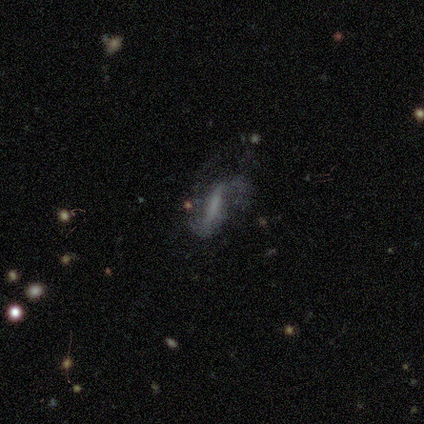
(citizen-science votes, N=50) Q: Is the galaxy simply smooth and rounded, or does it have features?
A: featured or disk — 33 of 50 (66%).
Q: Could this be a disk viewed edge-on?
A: no — 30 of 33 (91%).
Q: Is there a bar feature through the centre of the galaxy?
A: strong — 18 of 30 (60%).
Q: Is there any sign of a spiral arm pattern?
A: yes — 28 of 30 (93%).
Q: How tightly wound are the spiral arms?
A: loose — 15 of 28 (54%).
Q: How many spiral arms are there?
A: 2 — 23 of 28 (82%).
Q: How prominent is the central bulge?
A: none — 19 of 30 (63%).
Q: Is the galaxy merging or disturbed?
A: major disturbance — 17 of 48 (35%).